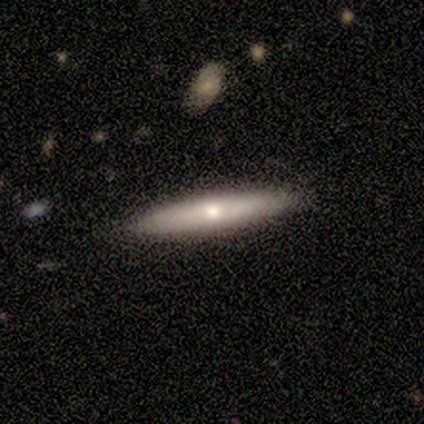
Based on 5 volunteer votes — A smooth galaxy with no disk features (80%) that is cigar-shaped (100%). Merging: none (80%).